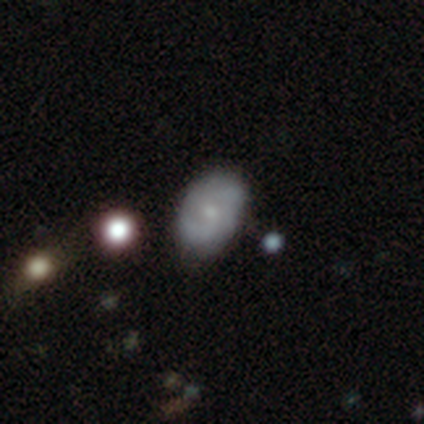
smooth-or-featured: featured or disk: 54% | smooth: 31% | star or artifact: 15%
  disk-edge-on: no: 100% | yes: 0%
    bar: no: 67% | weak: 29% | strong: 5%
    has-spiral-arms: yes: 71% | no: 29%
      spiral-winding: tight: 47% | medium: 33% | loose: 20%
      spiral-arm-count: 2: 40% (tied) | can't tell: 40% (tied) | 1: 7% | 3: 7% | more than 4: 7% | 4: 0%
    bulge-size: small: 71% | moderate: 24% | none: 5% | dominant: 0% | large: 0%
  merging: none: 79% | minor disturbance: 15% | major disturbance: 3% | merger: 3%